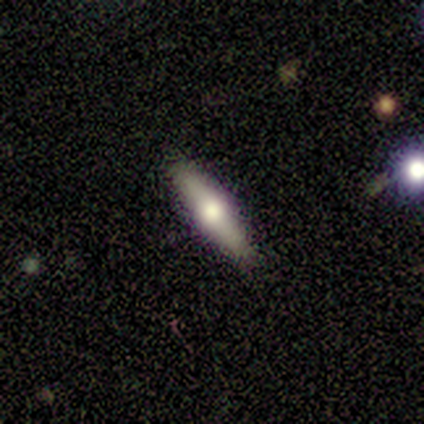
Smooth or featured: featured or disk — 58% (smooth — 42%)
Edge-on disk: yes — 71% (no — 29%)
Edge-on bulge: rounded — 100%
Merging: none — 100%